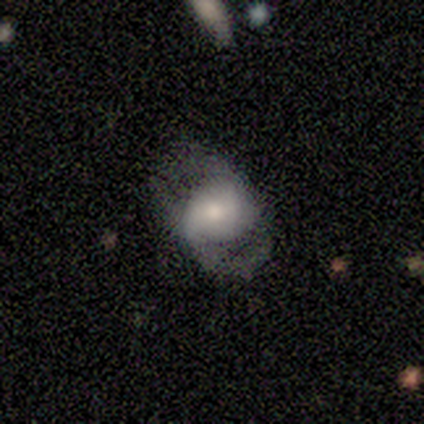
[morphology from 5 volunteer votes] Smooth or featured? smooth (80%)
How rounded? in between (100%)
Merging? none (40%, tied with major disturbance)